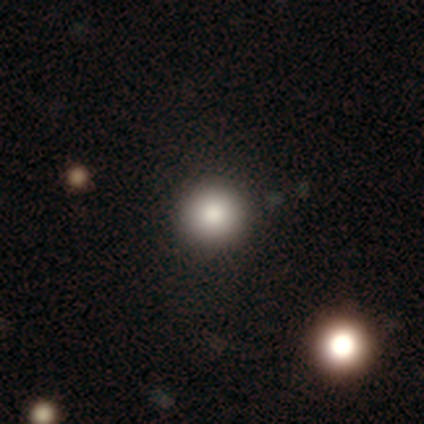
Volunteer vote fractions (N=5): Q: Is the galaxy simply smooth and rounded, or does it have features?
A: smooth — 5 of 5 (100%).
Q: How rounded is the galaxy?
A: round — 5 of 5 (100%).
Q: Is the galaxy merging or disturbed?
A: none — 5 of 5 (100%).